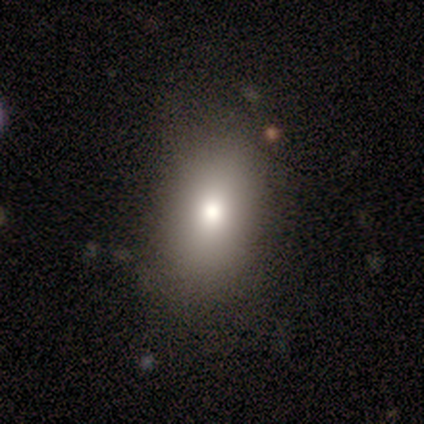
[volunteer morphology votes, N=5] This is likely a star or artifact rather than a galaxy (60%).